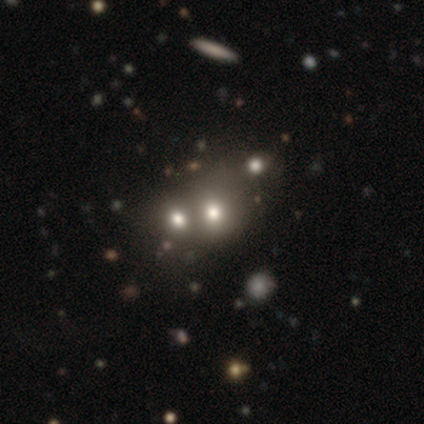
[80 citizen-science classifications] Morphology: type=smooth (72%); roundness=round (76%); merging=merger (67%).